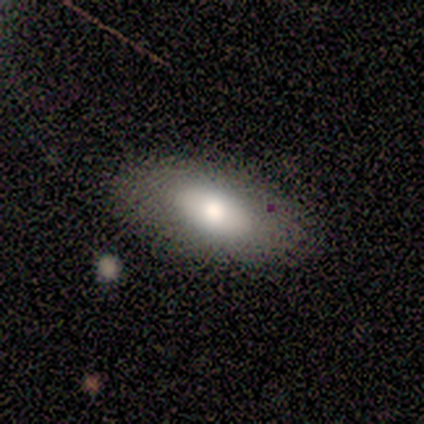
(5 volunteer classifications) Morphology: type=smooth (60%); roundness=in between (67%); merging=none (100%).